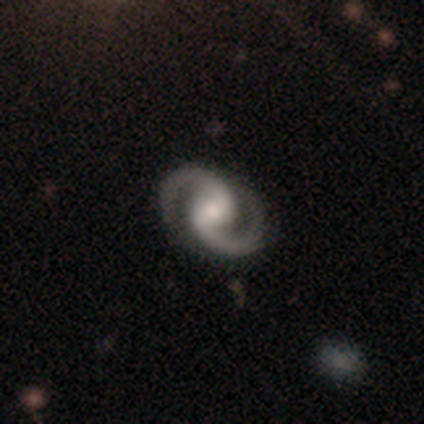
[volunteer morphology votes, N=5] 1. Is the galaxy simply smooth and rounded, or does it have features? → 100% featured or disk, 0% smooth, 0% star or artifact.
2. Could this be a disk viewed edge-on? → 80% no, 20% yes.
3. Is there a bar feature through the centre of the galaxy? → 75% no, 25% weak, 0% strong.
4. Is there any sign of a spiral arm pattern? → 100% yes, 0% no.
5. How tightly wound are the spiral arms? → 50% medium, 25% tight, 25% loose.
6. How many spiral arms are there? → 100% 2, 0% 1, 0% 3, 0% 4, 0% more than 4, 0% can't tell.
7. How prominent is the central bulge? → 50% moderate, 25% large, 25% small, 0% dominant, 0% none.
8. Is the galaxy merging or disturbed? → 100% none, 0% minor disturbance, 0% major disturbance, 0% merger.